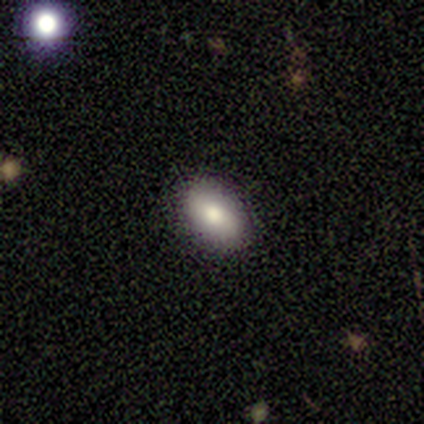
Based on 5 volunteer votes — Overall: smooth (60%; featured or disk 20%). How rounded: in between (100%). Merging: none (100%).